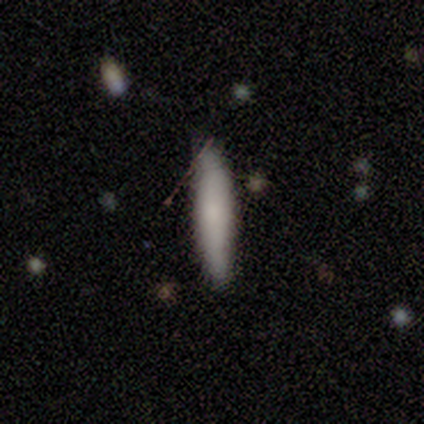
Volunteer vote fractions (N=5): Smooth or featured: smooth — 100%
How rounded: cigar-shaped — 100%
Merging: none — 80% (minor disturbance — 20%)